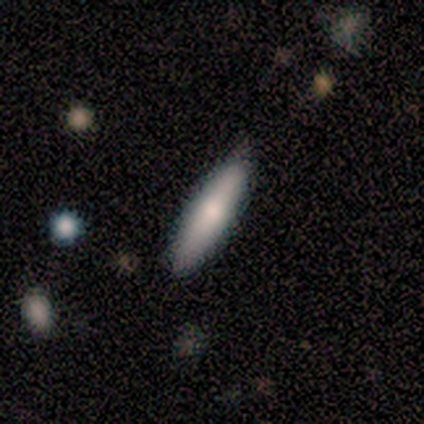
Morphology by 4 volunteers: A smooth galaxy with no disk features (75%) that is cigar-shaped (100%). Merging: none (75%).